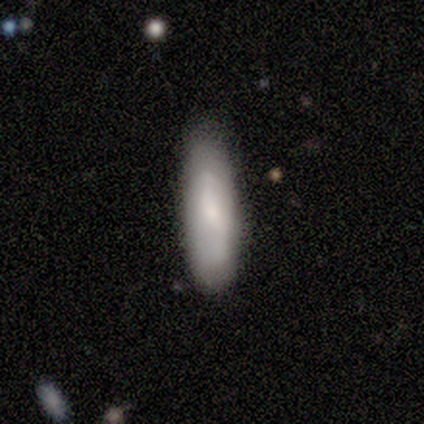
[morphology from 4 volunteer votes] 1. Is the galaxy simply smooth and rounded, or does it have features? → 50% smooth (tied), 50% featured or disk (tied), 0% star or artifact.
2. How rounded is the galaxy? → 50% in between (tied), 50% cigar-shaped (tied), 0% round.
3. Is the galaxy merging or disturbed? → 100% none, 0% minor disturbance, 0% major disturbance, 0% merger.